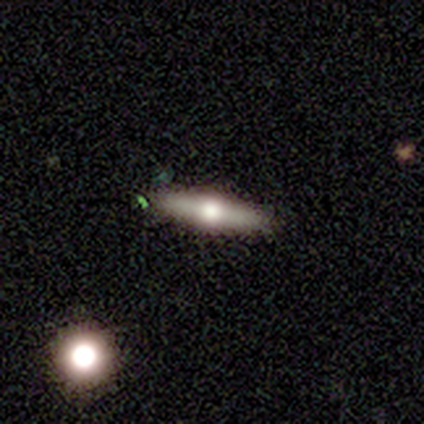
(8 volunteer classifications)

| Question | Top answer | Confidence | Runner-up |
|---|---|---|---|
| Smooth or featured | featured or disk | 62% | smooth (25%) |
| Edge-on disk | yes | 80% | no (20%) |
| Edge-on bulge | rounded | 100% | — |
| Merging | none | 100% | — |